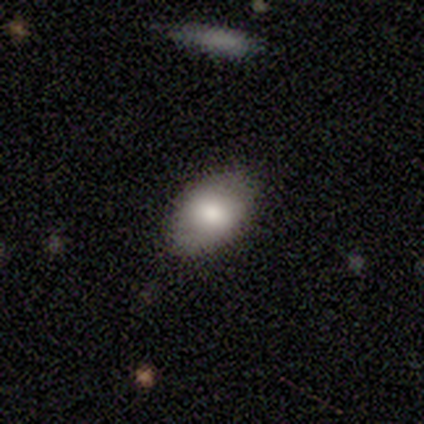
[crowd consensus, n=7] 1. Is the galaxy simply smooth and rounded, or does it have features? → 57% smooth, 43% featured or disk, 0% star or artifact.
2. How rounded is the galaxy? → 50% in between, 25% round, 25% cigar-shaped.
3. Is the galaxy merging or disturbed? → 86% none, 14% minor disturbance, 0% major disturbance, 0% merger.